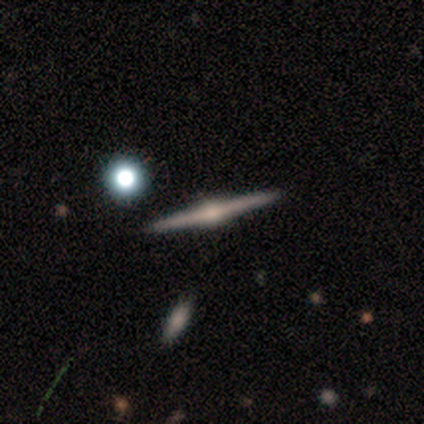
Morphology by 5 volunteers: Volunteers were most divided on "smooth or featured": featured or disk: 60%, star or artifact: 40%, smooth: 0%. More confident: edge-on disk — yes (100%); edge-on bulge — rounded (100%); merging — none (100%).